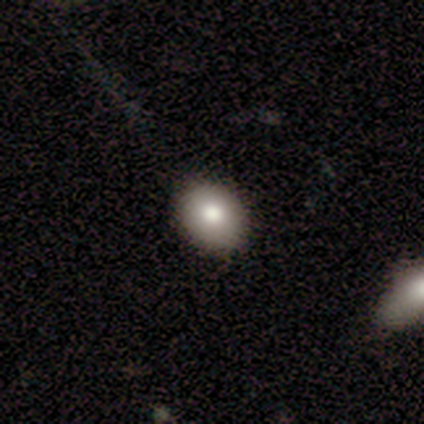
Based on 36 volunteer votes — smooth-or-featured: smooth: 75% | featured or disk: 14% | star or artifact: 11%
  how-rounded: in between: 52% | round: 44% | cigar-shaped: 4%
  merging: none: 75% | minor disturbance: 16% | major disturbance: 9% | merger: 0%